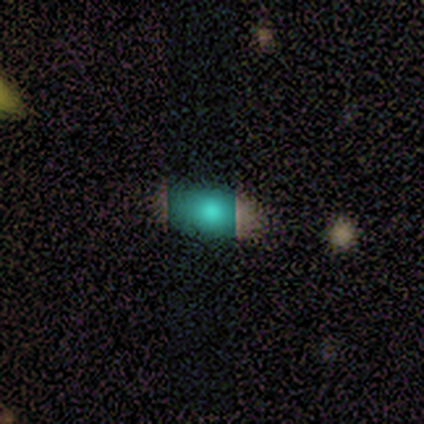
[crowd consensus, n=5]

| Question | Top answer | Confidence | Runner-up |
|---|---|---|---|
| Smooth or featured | smooth | 40% | tied: star or artifact (40%) |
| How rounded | in between | 100% | — |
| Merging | none | 100% | — |